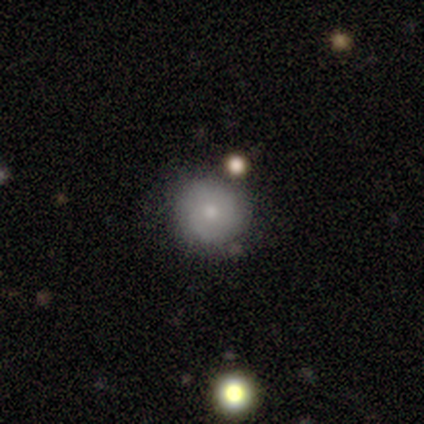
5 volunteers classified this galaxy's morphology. smooth_or_featured: smooth (p=0.60) [alt: featured or disk p=0.20]
how_rounded: round (p=1.00)
merging: none (p=0.50) [tied with: minor disturbance p=0.50]